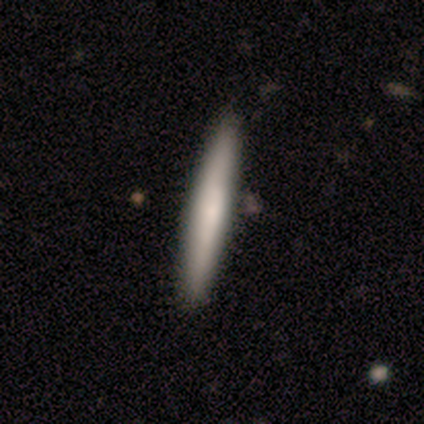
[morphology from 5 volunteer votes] smooth_or_featured: smooth (p=0.60) [alt: featured or disk p=0.40]
how_rounded: cigar-shaped (p=1.00)
merging: none (p=1.00)